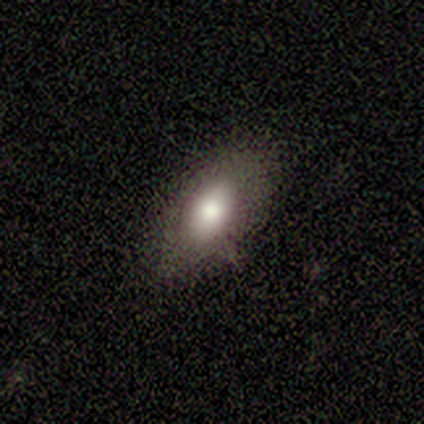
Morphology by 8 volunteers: A smooth galaxy with no disk features (75%) that is in between round and cigar-shaped (100%).

Vote fractions:
- Smooth or featured? smooth: 75% / featured or disk: 25% / star or artifact: 0%
- How rounded? in between: 100% / round: 0% / cigar-shaped: 0%
- Merging? none: 50% / minor disturbance: 38% / major disturbance: 12% / merger: 0%